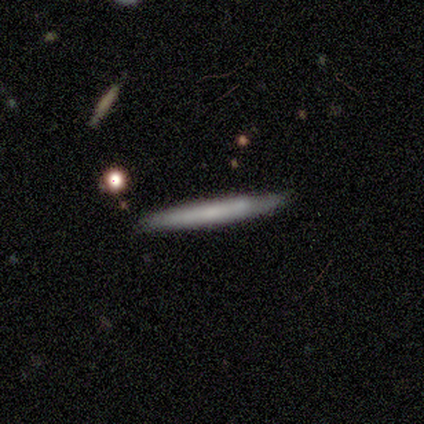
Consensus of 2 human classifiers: This is clearly a featured or disk galaxy (100%). It is clearly viewed edge-on (100%). Edge-on bulge: possibly none (50%, tied with rounded). Merging: clearly none (100%).